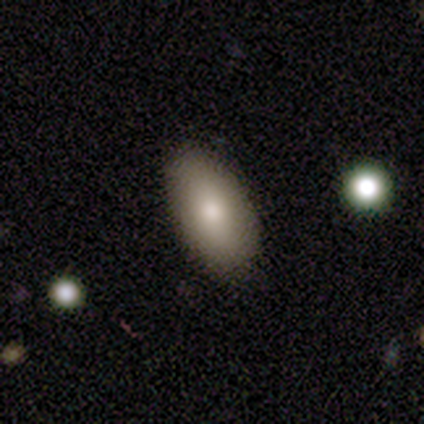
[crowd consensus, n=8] Morphology: type=smooth (88%); roundness=in between (71%); merging=none (88%).